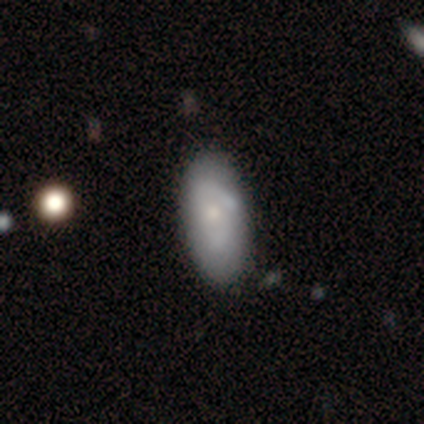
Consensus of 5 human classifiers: Smooth or featured?
  - smooth: 60% *
  - featured or disk: 40%
  - star or artifact: 0%
How rounded?
  - in between: 100% *
  - round: 0%
  - cigar-shaped: 0%
Merging?
  - none: 80% *
  - minor disturbance: 20%
  - major disturbance: 0%
  - merger: 0%